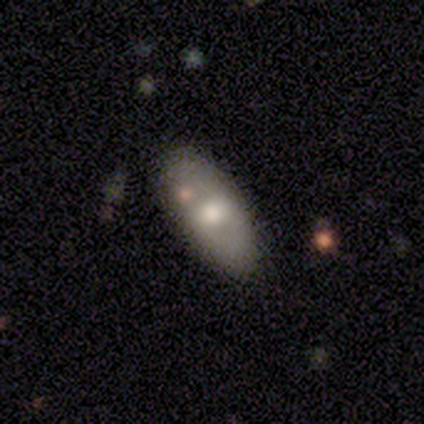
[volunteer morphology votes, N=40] This appears to be a smooth galaxy with no disk features (75%) that is in between round and cigar-shaped (87%). Merging: none (71%).